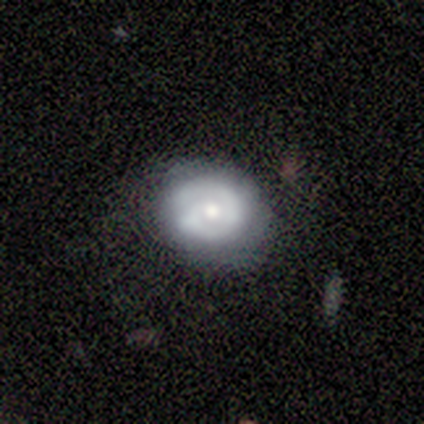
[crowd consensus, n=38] smooth_or_featured: featured or disk (p=0.63) [alt: smooth p=0.34]
disk_edge_on: no (p=0.96) [alt: yes p=0.04]
bar: no (p=0.78) [alt: weak p=0.22]
has_spiral_arms: yes (p=0.57) [alt: no p=0.43]
spiral_winding: tight (p=0.77) [alt: loose p=0.15]
spiral_arm_count: 2 (p=0.62) [alt: 1 p=0.23]
bulge_size: moderate (p=0.61) [alt: small p=0.39]
merging: none (p=0.73) [alt: minor disturbance p=0.19]